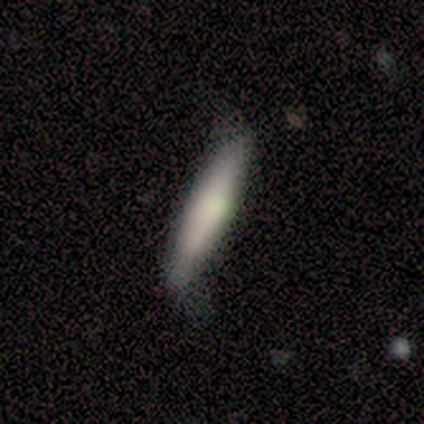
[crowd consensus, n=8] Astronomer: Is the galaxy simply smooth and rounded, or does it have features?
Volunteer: smooth — 75%.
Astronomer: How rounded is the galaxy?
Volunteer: cigar-shaped — 100%.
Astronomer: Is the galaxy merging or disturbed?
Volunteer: none — 62%.